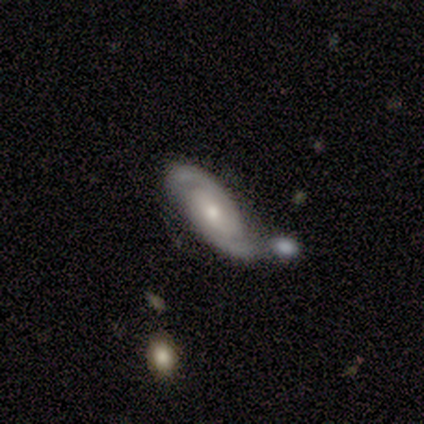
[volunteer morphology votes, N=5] type=featured or disk (100%); edge-on=no (100%); bar=no (80%); spiral arms=yes (100%); winding=tight (100%); arm count=2 (100%); bulge=small (100%); merging=none (40%, tied with minor disturbance).